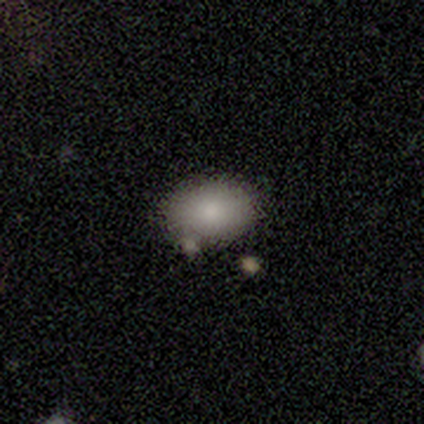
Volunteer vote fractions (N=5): Smooth or featured? 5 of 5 (100%) said smooth. How rounded? 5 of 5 (100%) said in between. Merging? 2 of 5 (40%, tied with merger) said minor disturbance.